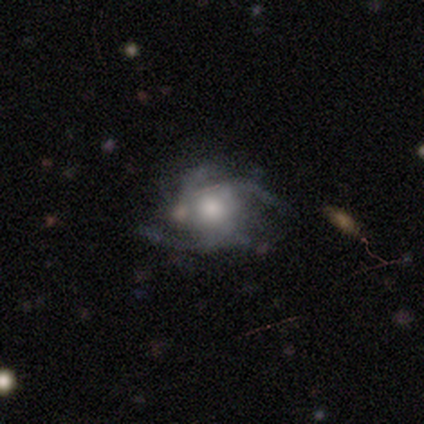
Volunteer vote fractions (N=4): Morphology: type=featured or disk (75%); edge-on=no (67%); bar=no (100%); spiral arms=yes (100%); winding=tight (50%, tied with loose); arm count=2 (50%, tied with 4); bulge=large (50%, tied with moderate); merging=minor disturbance (100%).